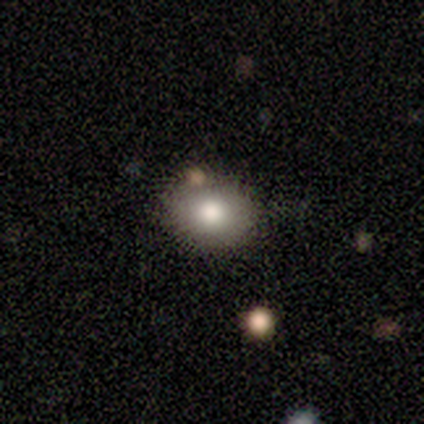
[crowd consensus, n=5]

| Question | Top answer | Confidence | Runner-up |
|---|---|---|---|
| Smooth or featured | smooth | 100% | — |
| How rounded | in between | 60% | round (40%) |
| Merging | none | 80% | minor disturbance (20%) |